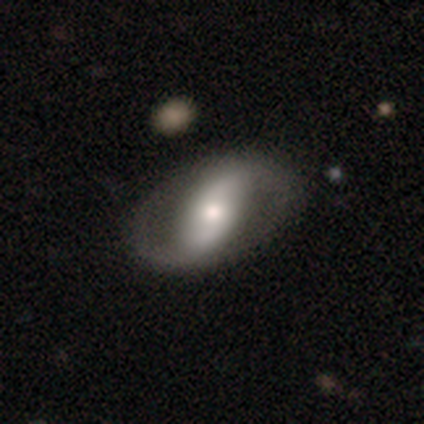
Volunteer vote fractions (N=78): A featured or disk galaxy (83%) with a strong bar (40%), 2 (96%) loose (54%) spiral arms (84%) and a moderate central bulge (63%). Merging: none (38%).